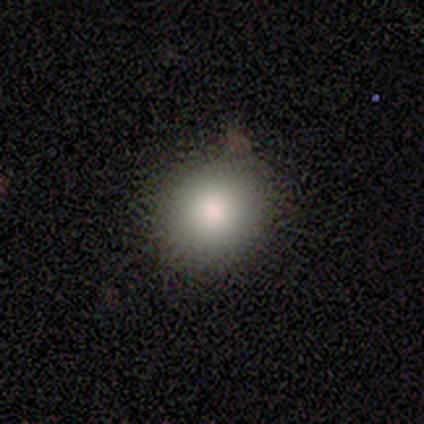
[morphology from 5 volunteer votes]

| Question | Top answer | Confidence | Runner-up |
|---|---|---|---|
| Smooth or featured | smooth | 60% | featured or disk (40%) |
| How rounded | round | 67% | in between (33%) |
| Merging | none | 60% | minor disturbance (40%) |